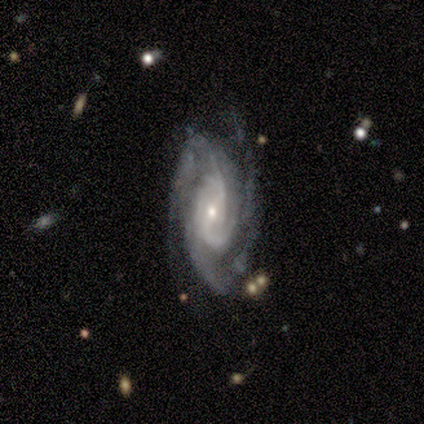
Smooth or featured? featured or disk (100%)
Edge-on disk? no (100%)
Bar? strong (75%)
Spiral arms? yes (100%)
Spiral winding? tight (75%)
Spiral arm count? 3 (50%)
Bulge size? small (100%)
Merging? none (50%, tied with minor disturbance)